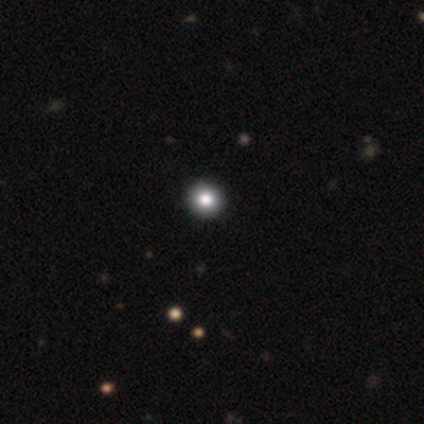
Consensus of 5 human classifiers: smooth 60%, featured or disk 20%, star or artifact 20%. Down the decision tree: how rounded — round (100%); merging — none (100%).